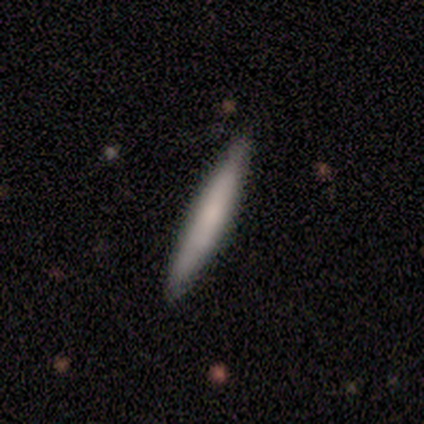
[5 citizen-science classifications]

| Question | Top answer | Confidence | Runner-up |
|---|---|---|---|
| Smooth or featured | featured or disk | 60% | smooth (40%) |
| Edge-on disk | yes | 100% | — |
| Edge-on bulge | rounded | 67% | none (33%) |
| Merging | none | 100% | — |